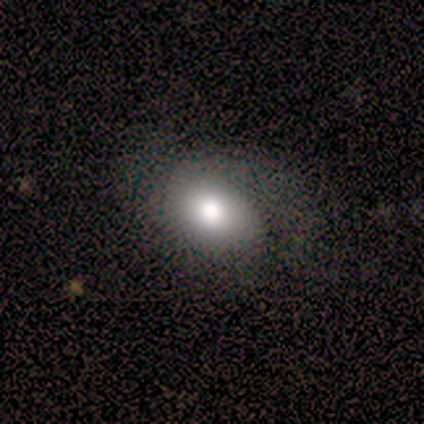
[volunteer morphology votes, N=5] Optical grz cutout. It shows a smooth galaxy with no disk features (60%) that is in between round and cigar-shaped (100%). Merging: minor disturbance (75%).